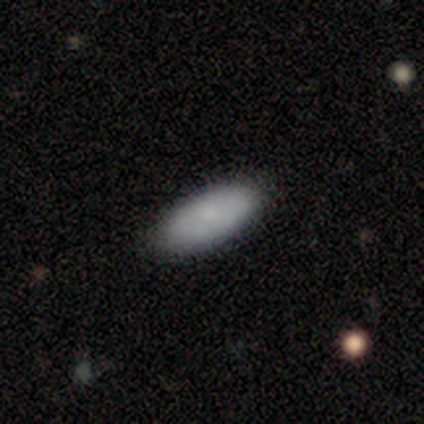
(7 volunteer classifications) smooth_or_featured: smooth (p=0.71) [alt: featured or disk p=0.29]
how_rounded: in between (p=0.80) [alt: cigar-shaped p=0.20]
merging: none (p=0.71) [alt: minor disturbance p=0.29]